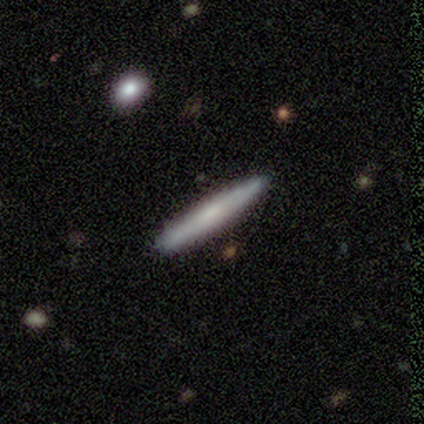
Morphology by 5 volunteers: smooth_or_featured: smooth (p=0.60) [alt: featured or disk p=0.40]
how_rounded: cigar-shaped (p=1.00)
merging: none (p=0.80) [alt: minor disturbance p=0.20]